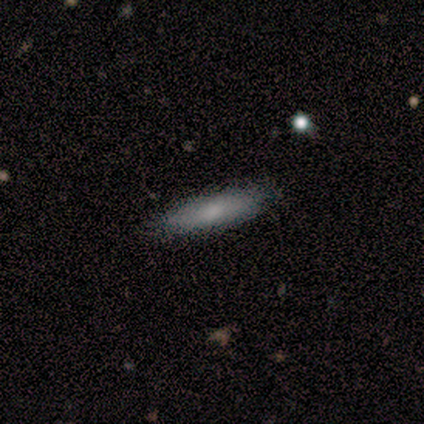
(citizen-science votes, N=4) smooth_or_featured: smooth (p=1.00)
how_rounded: in between (p=0.75) [alt: cigar-shaped p=0.25]
merging: none (p=1.00)